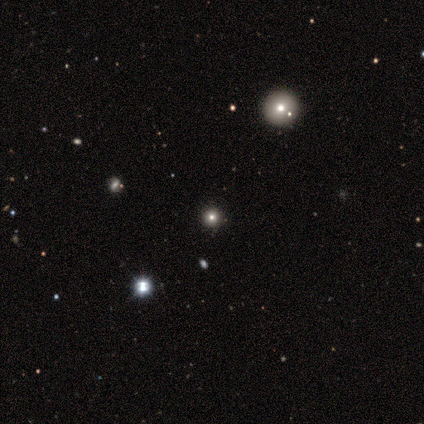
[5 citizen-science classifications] smooth 60%, star or artifact 40%, featured or disk 0%. Down the decision tree: how rounded — round (100%); merging — none (100%).